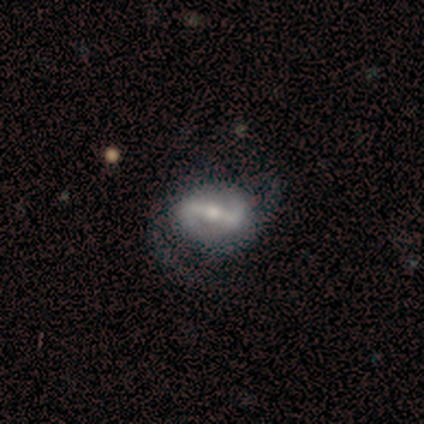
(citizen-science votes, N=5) featured or disk 100%, smooth 0%, star or artifact 0%. Down the decision tree: edge-on disk — no (80%); bar — strong (75%); spiral arms — yes (100%); spiral arm count — 2 (75%); spiral winding — medium (75%); bulge size — moderate (50%, tied with small); merging — none (40%, tied with merger).